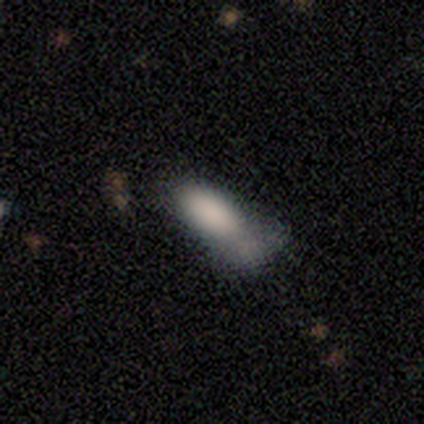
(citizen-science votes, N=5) This appears to be a smooth galaxy with no disk features (80%) that is in between round and cigar-shaped (100%). Merging: minor disturbance (60%).